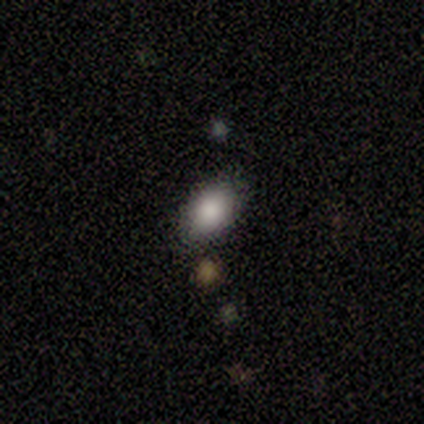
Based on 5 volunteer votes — A smooth galaxy with no disk features (80%) that is in between round and cigar-shaped (100%).

Vote fractions:
- Smooth or featured? smooth: 80% / featured or disk: 20% / star or artifact: 0%
- How rounded? in between: 100% / round: 0% / cigar-shaped: 0%
- Merging? none: 100% / minor disturbance: 0% / major disturbance: 0% / merger: 0%